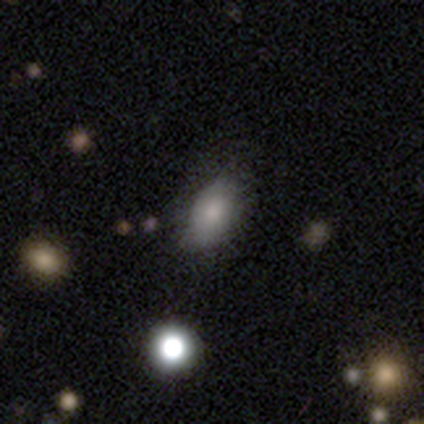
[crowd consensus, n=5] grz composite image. It shows a smooth galaxy with no disk features (100%) that is in between round and cigar-shaped (100%). Merging: none (60%).